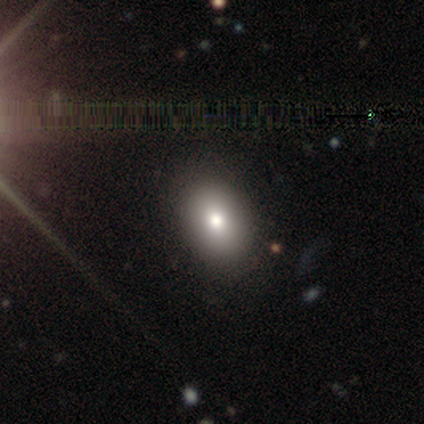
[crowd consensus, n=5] smooth_or_featured: smooth (p=0.60) [alt: star or artifact p=0.40]
how_rounded: round (p=0.67) [alt: in between p=0.33]
merging: none (p=1.00)